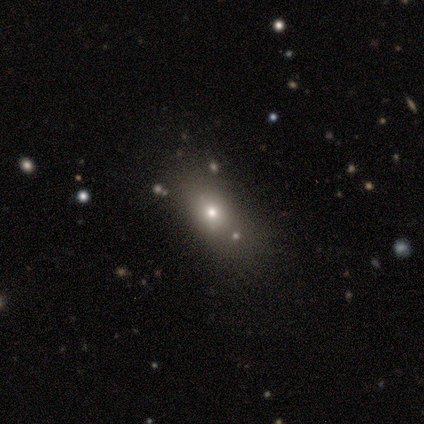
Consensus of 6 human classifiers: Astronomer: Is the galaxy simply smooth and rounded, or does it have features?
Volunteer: smooth — 100%.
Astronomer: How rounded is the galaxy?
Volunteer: in between — 100%.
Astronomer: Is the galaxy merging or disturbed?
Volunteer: none — 83%.